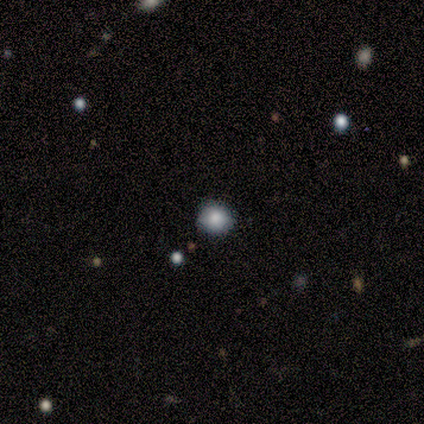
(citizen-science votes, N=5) This is clearly a smooth galaxy (80%). How rounded: clearly round (100%). Merging: possibly none (50%, tied with minor disturbance).